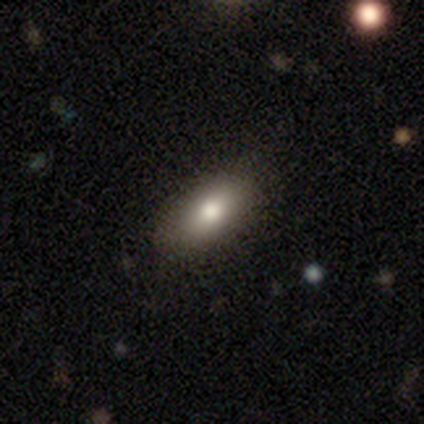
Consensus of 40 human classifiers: A smooth galaxy with no disk features (80%) that is in between round and cigar-shaped (91%).

Vote fractions:
- Smooth or featured? smooth: 80% / featured or disk: 10% / star or artifact: 10%
- How rounded? in between: 91% / cigar-shaped: 9% / round: 0%
- Merging? none: 89% / minor disturbance: 6% / major disturbance: 6% / merger: 0%